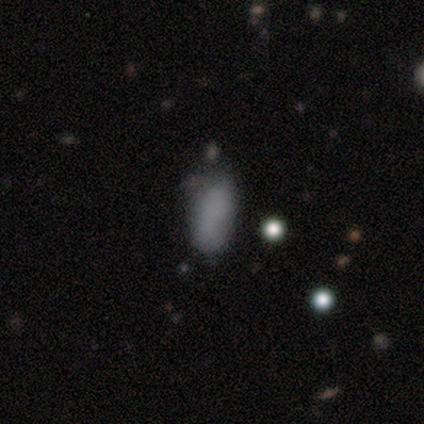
smooth-or-featured: smooth: 100% | featured or disk: 0% | star or artifact: 0%
  how-rounded: in between: 100% | round: 0% | cigar-shaped: 0%
  merging: none: 67% | minor disturbance: 17% | major disturbance: 17% | merger: 0%